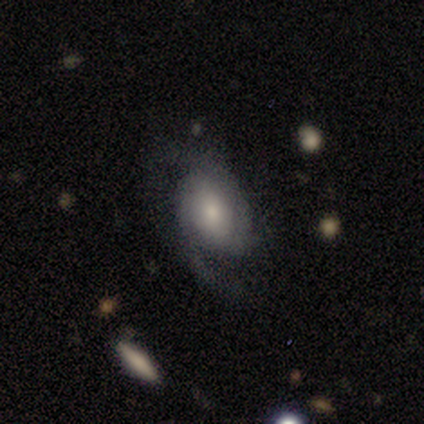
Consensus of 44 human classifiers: Smooth or featured: featured or disk — 73% (smooth — 14%)
Edge-on disk: no — 100%
Bar: no — 56% (weak — 31%)
Spiral arms: yes — 97% (no — 3%)
Spiral winding: medium — 42% (tight — 35%)
Spiral arm count: 2 — 71% (3 — 16%)
Bulge size: moderate — 44% (small — 31%)
Merging: none — 66% (minor disturbance — 18%)